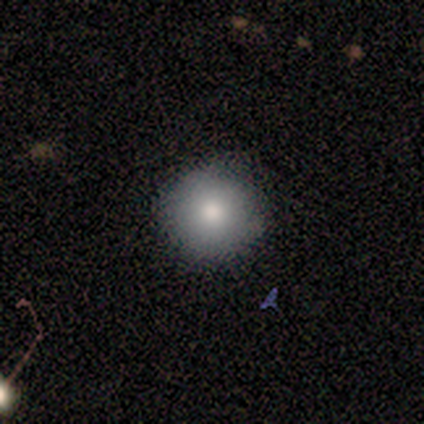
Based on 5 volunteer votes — smooth-or-featured: smooth: 60% | featured or disk: 40% | star or artifact: 0%
  how-rounded: round: 100% | in between: 0% | cigar-shaped: 0%
  merging: none: 100% | minor disturbance: 0% | major disturbance: 0% | merger: 0%